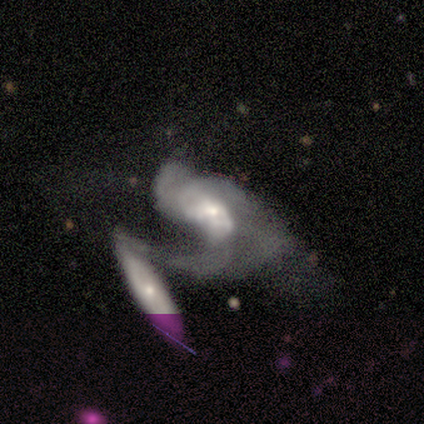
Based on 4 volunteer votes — smooth 50% (tied), featured or disk 50% (tied), star or artifact 0%. Down the decision tree: how rounded — in between (50%, tied with cigar-shaped); merging — merger (100%).